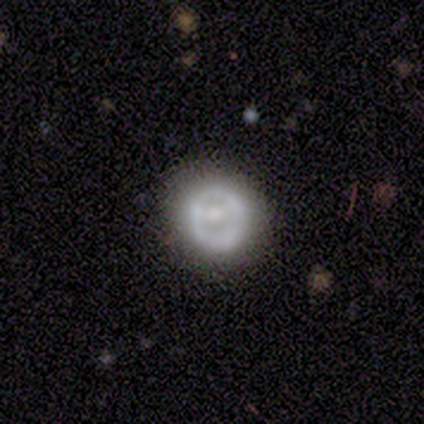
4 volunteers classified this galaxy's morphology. type=featured or disk (50%); edge-on=no (100%); bar=no (100%); spiral arms=no (100%); bulge=moderate (50%, tied with small); merging=none (67%).